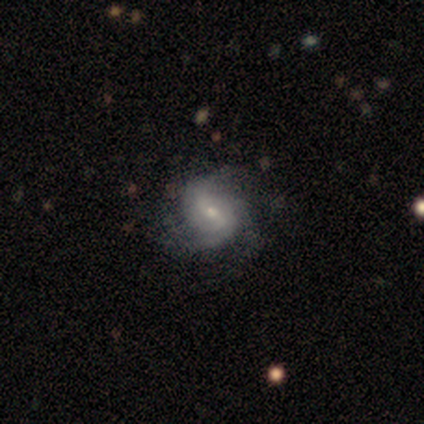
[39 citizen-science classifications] A featured or disk galaxy (95%) with a weak bar (70%), 3 (44%) medium (56%) spiral arms (97%) and a small central bulge (62%).

Vote fractions:
- Smooth or featured? featured or disk: 95% / smooth: 5% / star or artifact: 0%
- Edge-on disk? no: 100% / yes: 0%
- Bar? weak: 70% / no: 22% / strong: 8%
- Spiral arms? yes: 97% / no: 3%
- Spiral winding? medium: 56% / tight: 25% / loose: 19%
- Spiral arm count? 3: 44% / 2: 36% / can't tell: 17% / 4: 3% / 1: 0% / more than 4: 0%
- Bulge size? small: 62% / moderate: 35% / large: 3% / dominant: 0% / none: 0%
- Merging? none: 49% / minor disturbance: 26% / major disturbance: 13% / merger: 0%